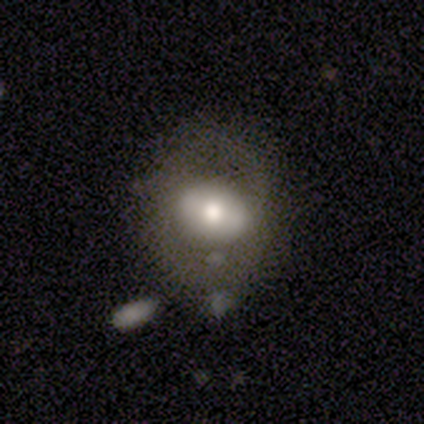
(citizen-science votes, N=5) Volunteers were most divided on "spiral winding" (2-way tie): medium: 50%, loose: 50%, tight: 0%; "spiral arm count" (2-way tie): 2: 50%, can't tell: 50%, 1: 0%, 3: 0%, 4: 0%, more than 4: 0%; "merging" (2-way tie): minor disturbance: 40%, major disturbance: 40%, none: 20%, merger: 0%. More confident: edge-on disk — no (100%); bulge size — moderate (100%); bar — no (67%); spiral arms — yes (67%); smooth or featured — featured or disk (60%).